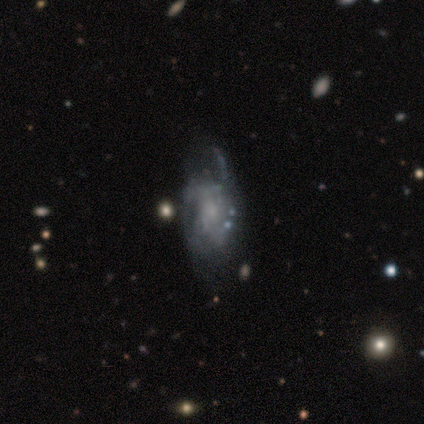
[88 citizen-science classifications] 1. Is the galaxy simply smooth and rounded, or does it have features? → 77% featured or disk, 16% smooth, 7% star or artifact.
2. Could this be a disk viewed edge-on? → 99% no, 1% yes.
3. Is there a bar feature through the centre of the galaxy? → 76% no, 22% weak, 1% strong.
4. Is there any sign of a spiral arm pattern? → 69% yes, 31% no.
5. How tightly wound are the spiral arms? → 57% medium, 24% loose, 20% tight.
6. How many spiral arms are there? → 41% can't tell, 22% 2, 17% 3, 15% 4, 4% 1, 0% more than 4.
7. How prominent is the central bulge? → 52% small, 27% none, 18% moderate, 3% large, 0% dominant.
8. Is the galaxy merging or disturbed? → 56% none, 23% minor disturbance, 21% major disturbance, 0% merger.